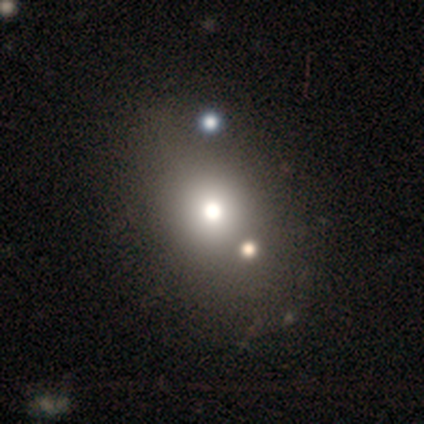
A smooth galaxy with no disk features (80%) that is in between round and cigar-shaped (75%). Merging: none (100%).